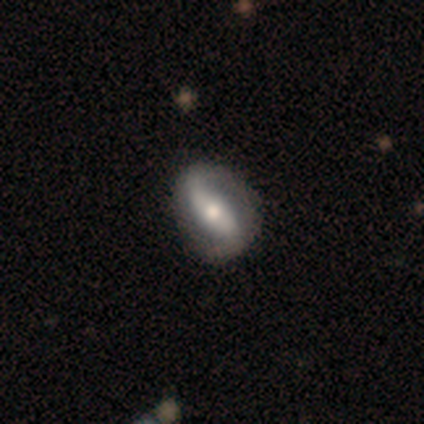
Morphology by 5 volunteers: Smooth or featured? featured or disk (80%)
Edge-on disk? no (100%)
Bar? strong (100%)
Spiral arms? yes (50%, tied with no)
Spiral winding? loose (100%)
Spiral arm count? 2 (100%)
Bulge size? large (50%, tied with moderate)
Merging? none (80%)